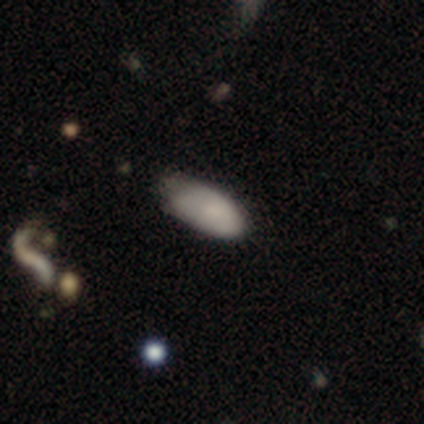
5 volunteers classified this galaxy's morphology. smooth-or-featured: smooth: 80% | featured or disk: 20% | star or artifact: 0%
  how-rounded: in between: 50% (tied) | cigar-shaped: 50% (tied) | round: 0%
  merging: minor disturbance: 60% | none: 20% | major disturbance: 20% | merger: 0%